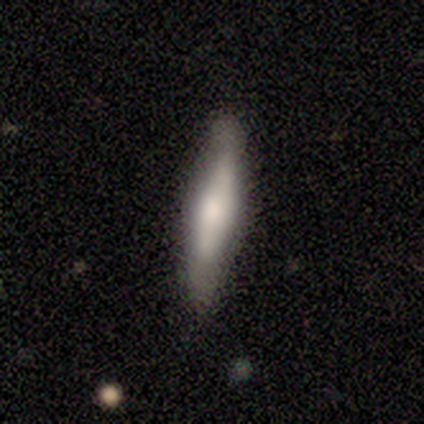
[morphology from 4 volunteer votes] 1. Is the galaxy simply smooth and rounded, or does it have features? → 75% smooth, 25% featured or disk, 0% star or artifact.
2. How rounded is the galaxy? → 100% cigar-shaped, 0% round, 0% in between.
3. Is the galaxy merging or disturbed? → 75% none, 25% minor disturbance, 0% major disturbance, 0% merger.